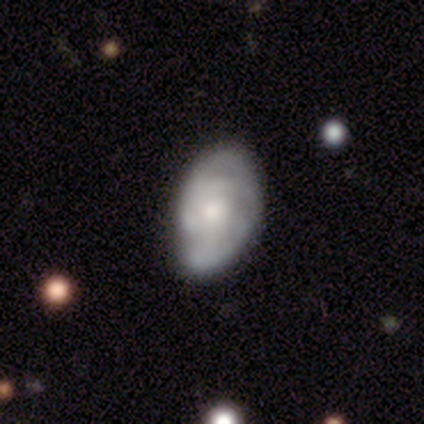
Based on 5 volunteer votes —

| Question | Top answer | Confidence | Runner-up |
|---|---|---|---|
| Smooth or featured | smooth | 60% | featured or disk (40%) |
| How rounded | in between | 67% | round (33%) |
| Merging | none | 80% | minor disturbance (20%) |